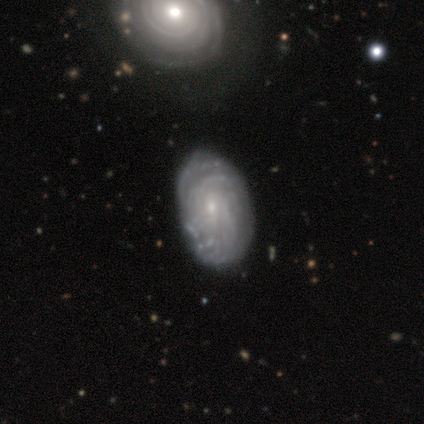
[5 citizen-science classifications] Overall: featured or disk (80%). Edge-on disk: no (100%). Bar: no (75%). Spiral arms: yes (100%). Spiral arm count: more than 4 (50%; 4 25%). Spiral winding: tight (75%). Bulge size: small (50%; moderate 25%). Merging: merger (50%; none 25%).